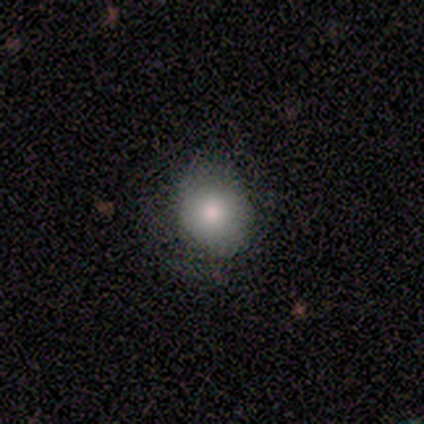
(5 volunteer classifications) Q: Smooth or featured?
A: smooth (60%); runner-up: featured or disk (40%)
Q: How rounded?
A: in between (67%); runner-up: round (33%)
Q: Merging?
A: none (100%)